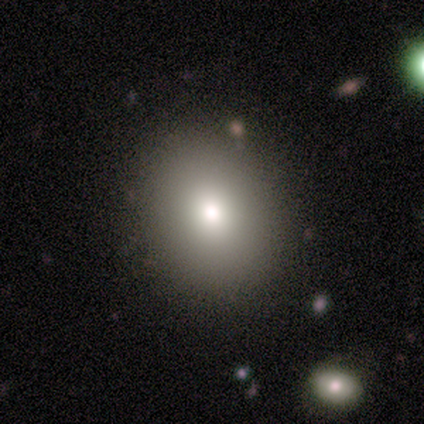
Volunteers were most divided on "how rounded": round: 67%, in between: 33%, cigar-shaped: 0%. More confident: merging — none (100%); smooth or featured — smooth (60%).